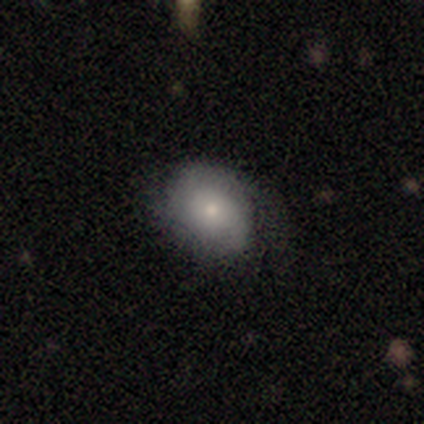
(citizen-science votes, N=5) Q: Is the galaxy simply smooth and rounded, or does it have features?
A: featured or disk — 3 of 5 (60%).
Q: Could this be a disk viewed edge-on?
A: no — 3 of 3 (100%).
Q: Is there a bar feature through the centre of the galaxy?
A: no — 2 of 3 (67%).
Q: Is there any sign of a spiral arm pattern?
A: yes — 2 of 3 (67%).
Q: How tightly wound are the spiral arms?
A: medium — 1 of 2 (50%, tied with loose).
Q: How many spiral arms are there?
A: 1 — 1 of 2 (50%, tied with 2).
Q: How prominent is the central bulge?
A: small — 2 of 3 (67%).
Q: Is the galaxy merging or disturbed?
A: none — 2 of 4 (50%).